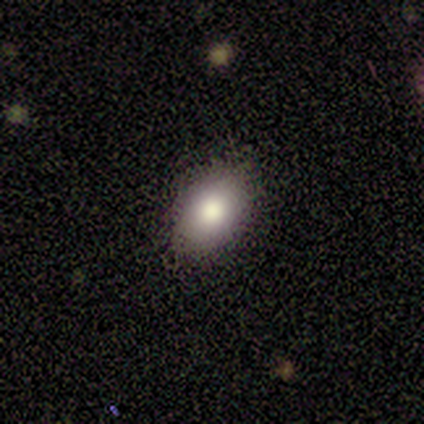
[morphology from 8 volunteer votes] A smooth galaxy with no disk features (75%) that is in between round and cigar-shaped (83%).

Vote fractions:
- Smooth or featured? smooth: 75% / star or artifact: 25% / featured or disk: 0%
- How rounded? in between: 83% / round: 17% / cigar-shaped: 0%
- Merging? none: 83% / minor disturbance: 17% / major disturbance: 0% / merger: 0%